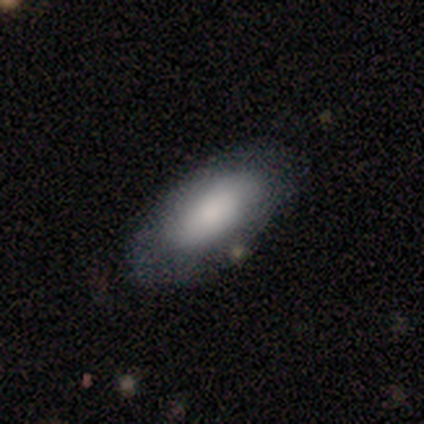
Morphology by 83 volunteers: This is likely a smooth galaxy (72%). How rounded: clearly in between (88%). Merging: likely none (73%).